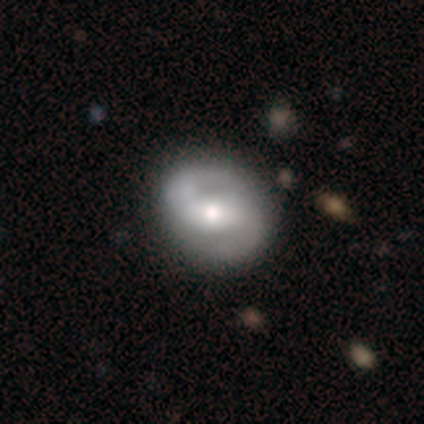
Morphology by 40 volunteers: Smooth or featured: featured or disk — 90% (smooth — 10%)
Edge-on disk: no — 94% (yes — 6%)
Bar: weak — 50% (strong — 32%)
Spiral arms: yes — 97% (no — 3%)
Spiral winding: tight — 33% (tied with medium — 33%; loose — 33%)
Spiral arm count: 2 — 97% (can't tell — 3%)
Bulge size: moderate — 62% (small — 18%)
Merging: none — 55% (minor disturbance — 12%)